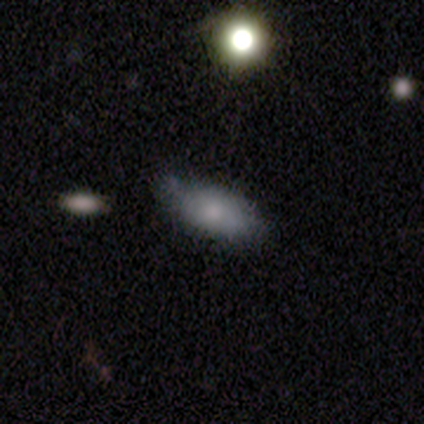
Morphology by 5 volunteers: smooth-or-featured: smooth: 80% | featured or disk: 20% | star or artifact: 0%
  how-rounded: in between: 100% | round: 0% | cigar-shaped: 0%
  merging: none: 60% | minor disturbance: 40% | major disturbance: 0% | merger: 0%